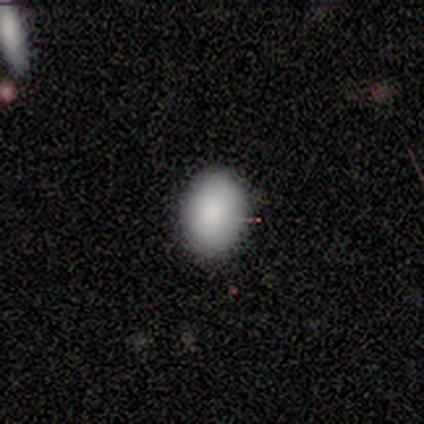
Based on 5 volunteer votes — Smooth or featured: smooth — 100%
How rounded: in between — 100%
Merging: none — 80% (minor disturbance — 20%)